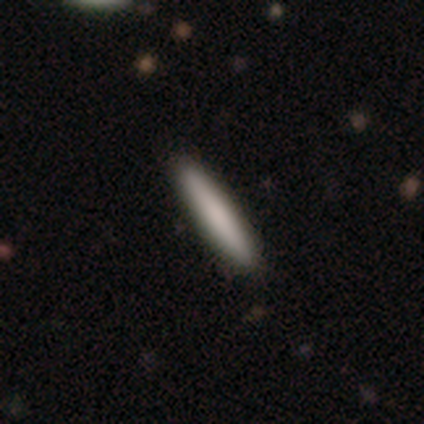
Smooth or featured: smooth — 60% (featured or disk — 40%)
How rounded: cigar-shaped — 100%
Merging: minor disturbance — 60% (none — 40%)